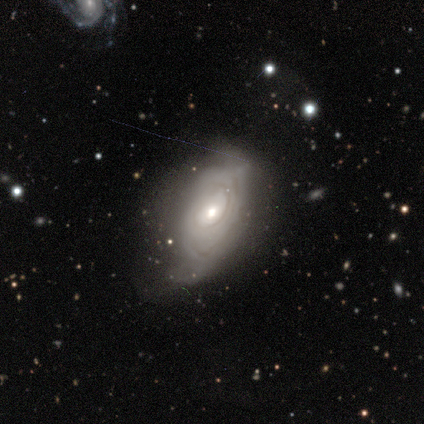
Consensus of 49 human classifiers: A featured or disk galaxy (80%) with no bar (86%), tight (65%) spiral arms (64%) and a moderate central bulge (53%).

Vote fractions:
- Smooth or featured? featured or disk: 80% / smooth: 16% / star or artifact: 4%
- Edge-on disk? no: 92% / yes: 8%
- Bar? no: 86% / weak: 14% / strong: 0%
- Spiral arms? yes: 64% / no: 36%
- Spiral winding? tight: 65% / medium: 17% / loose: 17%
- Spiral arm count? can't tell: 83% / 2: 9% / 1: 4% / 4: 4% / 3: 0% / more than 4: 0%
- Bulge size? moderate: 53% / small: 44% / dominant: 3% / large: 0% / none: 0%
- Merging? none: 43% (tied) / minor disturbance: 43% (tied) / major disturbance: 13% / merger: 2%